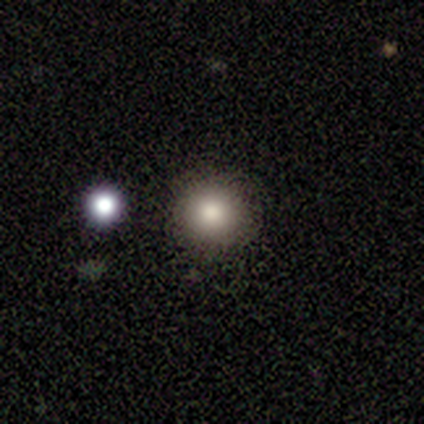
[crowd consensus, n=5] This is clearly a smooth galaxy (100%). How rounded: clearly round (100%). Merging: clearly none (100%).